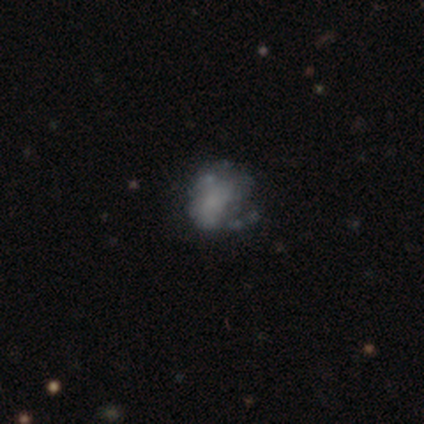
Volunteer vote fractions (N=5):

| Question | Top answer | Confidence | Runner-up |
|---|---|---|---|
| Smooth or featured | featured or disk | 60% | smooth (20%) |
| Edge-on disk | no | 100% | — |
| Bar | no | 100% | — |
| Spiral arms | no | 100% | — |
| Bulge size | none | 67% | small (33%) |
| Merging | none | 50% | tied: minor disturbance (50%) |